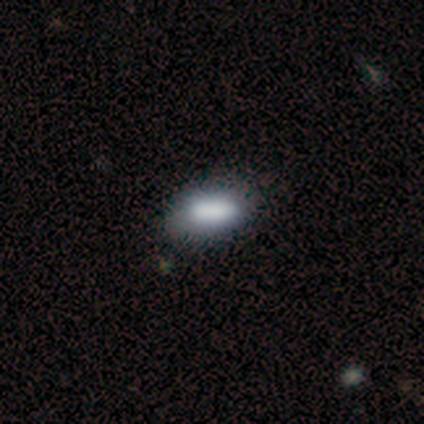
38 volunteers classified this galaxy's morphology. Q: Smooth or featured?
A: smooth (74%); runner-up: featured or disk (21%)
Q: How rounded?
A: in between (86%); runner-up: round (7%)
Q: Merging?
A: none (53%); runner-up: minor disturbance (14%)